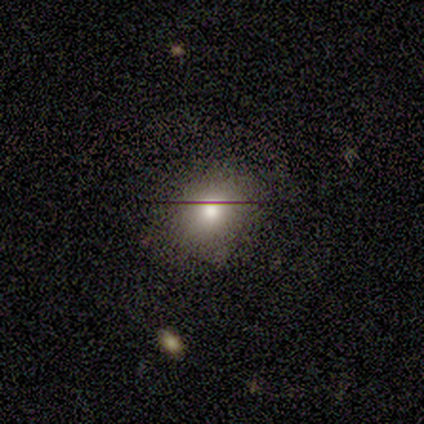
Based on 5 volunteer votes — Smooth or featured: smooth — 80% (star or artifact — 20%)
How rounded: in between — 75% (round — 25%)
Merging: minor disturbance — 50% (none — 25%)